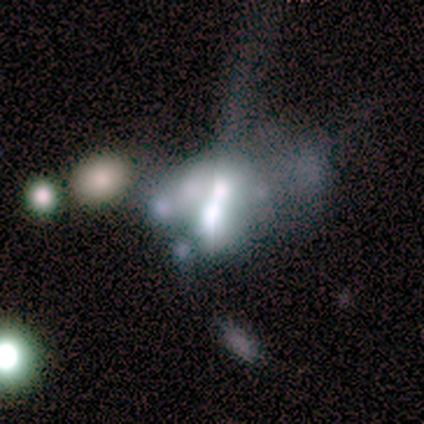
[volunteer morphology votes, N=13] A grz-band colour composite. It shows a featured or disk galaxy (54%) with no bar (43%), no spiral arms (86%) and a large central bulge (43%, tied with moderate). Merging: merger (73%).